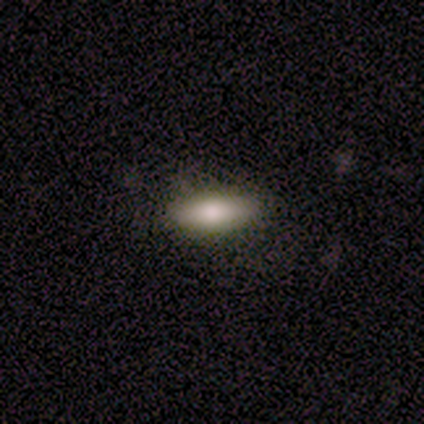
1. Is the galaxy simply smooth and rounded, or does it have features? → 100% smooth, 0% featured or disk, 0% star or artifact.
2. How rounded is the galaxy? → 80% in between, 20% cigar-shaped, 0% round.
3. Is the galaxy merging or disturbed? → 100% none, 0% minor disturbance, 0% major disturbance, 0% merger.